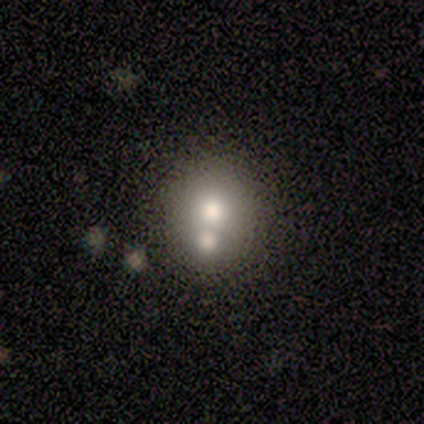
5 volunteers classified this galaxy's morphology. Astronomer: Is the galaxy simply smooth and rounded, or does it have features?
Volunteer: smooth — 80%.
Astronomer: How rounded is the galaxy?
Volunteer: round — 75%.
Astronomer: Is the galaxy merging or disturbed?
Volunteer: none — 75%.